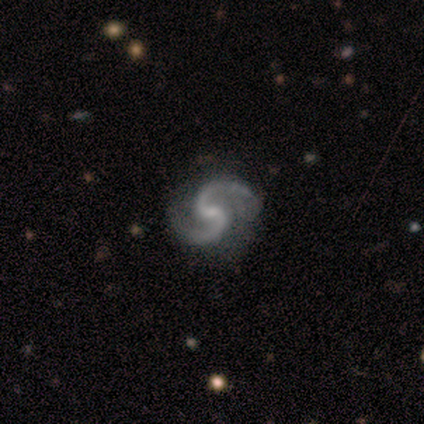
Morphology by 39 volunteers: Overall: featured or disk (97%). Edge-on disk: no (100%). Bar: weak (50%; no 37%). Spiral arms: yes (97%). Spiral arm count: 2 (100%). Spiral winding: medium (62%; loose 32%). Bulge size: small (61%; moderate 21%). Merging: none (53%; minor disturbance 13%).